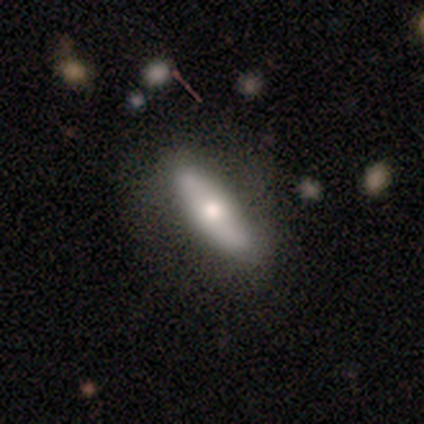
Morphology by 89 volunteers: smooth_or_featured: smooth (p=0.52) [alt: featured or disk p=0.40]
how_rounded: cigar-shaped (p=0.67) [alt: in between p=0.33]
merging: none (p=0.79) [alt: minor disturbance p=0.17]